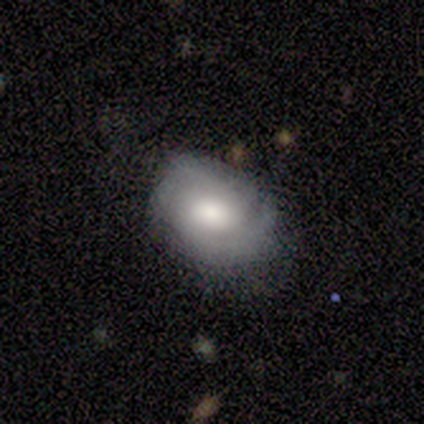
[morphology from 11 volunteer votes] A featured or disk galaxy (55%) with a weak bar (50%), 2 (83%) tight (83%) spiral arms (100%) and a moderate central bulge (50%).

Vote fractions:
- Smooth or featured? featured or disk: 55% / smooth: 36% / star or artifact: 9%
- Edge-on disk? no: 100% / yes: 0%
- Bar? weak: 50% / no: 33% / strong: 17%
- Spiral arms? yes: 100% / no: 0%
- Spiral winding? tight: 83% / loose: 17% / medium: 0%
- Spiral arm count? 2: 83% / can't tell: 17% / 1: 0% / 3: 0% / 4: 0% / more than 4: 0%
- Bulge size? moderate: 50% / large: 33% / none: 17% / dominant: 0% / small: 0%
- Merging? none: 60% / minor disturbance: 30% / major disturbance: 10% / merger: 0%